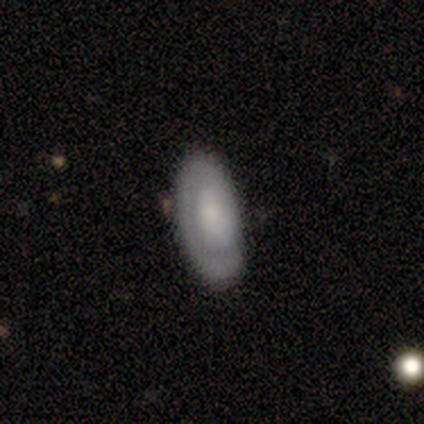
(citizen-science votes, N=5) Overall: featured or disk (80%). Edge-on disk: no (100%). Bar: no (100%). Spiral arms: yes (50%, tied with no). Spiral arm count: 2 (50%, tied with can't tell). Spiral winding: tight (50%, tied with medium). Bulge size: small (50%, tied with none). Merging: none (75%).